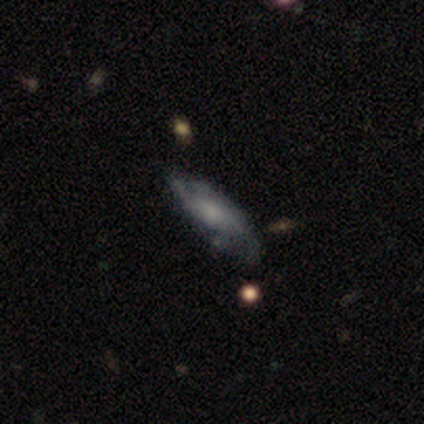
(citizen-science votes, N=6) smooth 50% (tied), featured or disk 50% (tied), star or artifact 0%. Down the decision tree: how rounded — in between (67%); merging — none (83%).